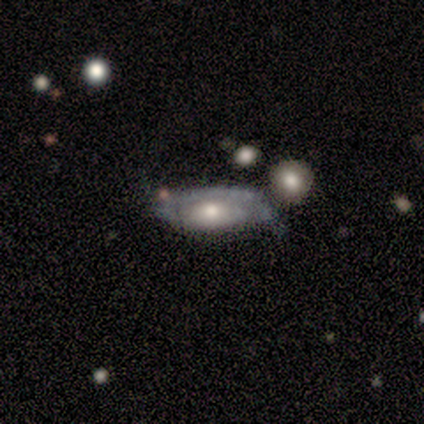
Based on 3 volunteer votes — featured or disk 67%, smooth 33%, star or artifact 0%. Down the decision tree: edge-on disk — no (100%); bar — weak (50%, tied with no); spiral arms — yes (50%, tied with no); spiral arm count — 3 (100%); spiral winding — tight (100%); bulge size — moderate (100%); merging — minor disturbance (67%).